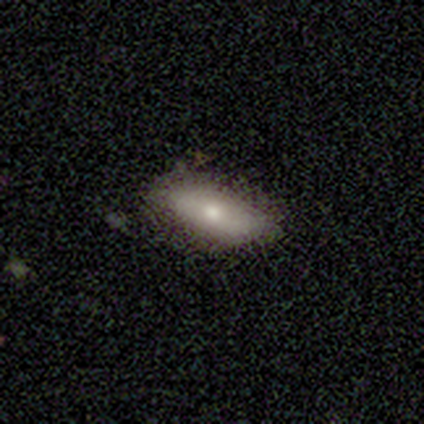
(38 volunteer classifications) A smooth galaxy with no disk features (68%) that is in between round and cigar-shaped (81%).

Vote fractions:
- Smooth or featured? smooth: 68% / featured or disk: 26% / star or artifact: 5%
- How rounded? in between: 81% / cigar-shaped: 15% / round: 4%
- Merging? none: 72% / minor disturbance: 25% / major disturbance: 3% / merger: 0%